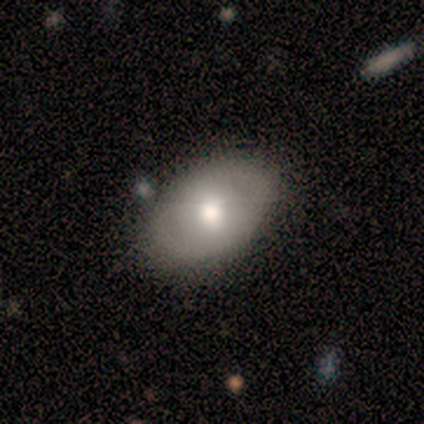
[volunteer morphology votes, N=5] Q: Smooth or featured?
A: smooth (40%); tied with: featured or disk (40%)
Q: How rounded?
A: in between (100%)
Q: Merging?
A: none (100%)